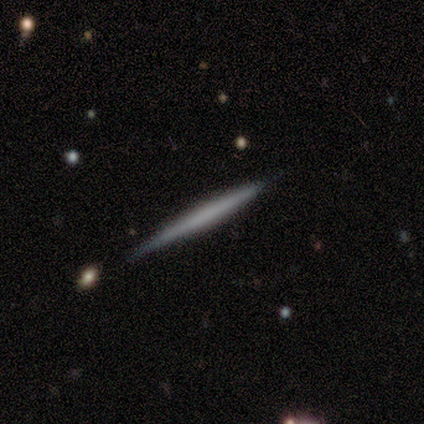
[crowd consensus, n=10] Smooth or featured: featured or disk — 50% (smooth — 40%)
Edge-on disk: yes — 100%
Edge-on bulge: none — 80% (boxy — 20%)
Merging: none — 89% (minor disturbance — 11%)